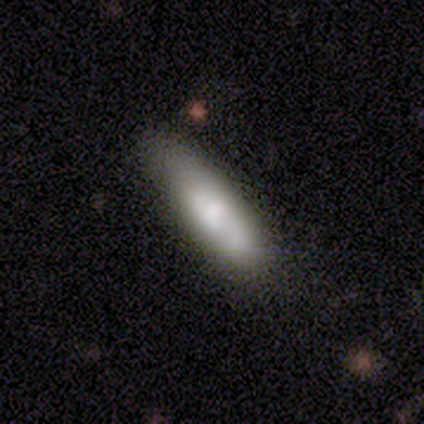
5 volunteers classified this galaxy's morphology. Smooth or featured: smooth — 80% (featured or disk — 20%)
How rounded: in between — 75% (cigar-shaped — 25%)
Merging: none — 60% (minor disturbance — 20%)